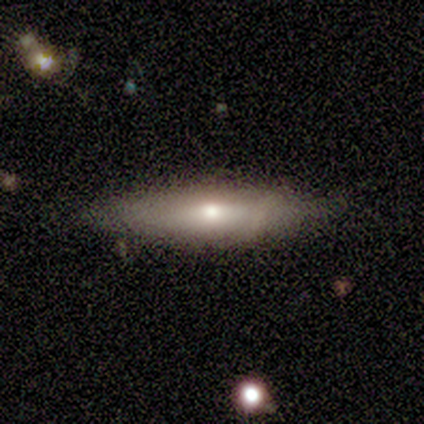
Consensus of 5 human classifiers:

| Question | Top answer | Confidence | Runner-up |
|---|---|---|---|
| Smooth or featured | smooth | 100% | — |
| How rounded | cigar-shaped | 80% | in between (20%) |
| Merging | none | 80% | minor disturbance (20%) |